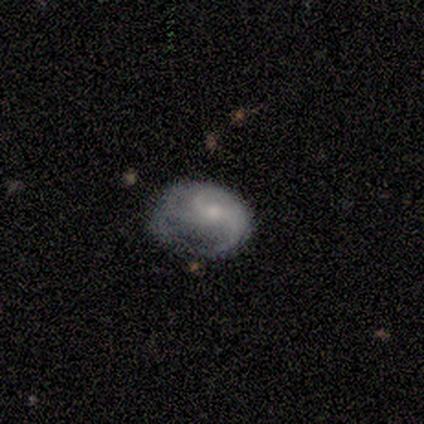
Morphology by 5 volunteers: Smooth or featured?
  - featured or disk: 100% *
  - smooth: 0%
  - star or artifact: 0%
Edge-on disk?
  - no: 100% *
  - yes: 0%
Bar?
  - no: 60% *
  - weak: 40%
  - strong: 0%
Spiral arms?
  - yes: 100% *
  - no: 0%
Spiral winding?
  - medium: 60% *
  - tight: 20%
  - loose: 20%
Spiral arm count?
  - 2: 60% *
  - can't tell: 40%
  - 1: 0%
  - 3: 0%
  - 4: 0%
  - more than 4: 0%
Bulge size?
  - small: 60% *
  - moderate: 40%
  - dominant: 0%
  - large: 0%
  - none: 0%
Merging?
  - major disturbance: 60% *
  - minor disturbance: 40%
  - none: 0%
  - merger: 0%